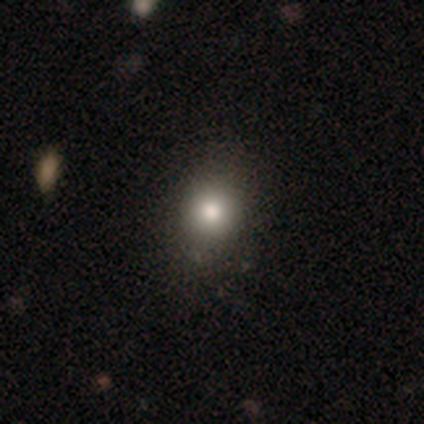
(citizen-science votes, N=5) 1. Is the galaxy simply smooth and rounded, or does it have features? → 60% smooth, 20% featured or disk, 20% star or artifact.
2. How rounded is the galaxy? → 67% round, 33% in between, 0% cigar-shaped.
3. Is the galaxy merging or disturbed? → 75% none, 25% minor disturbance, 0% major disturbance, 0% merger.